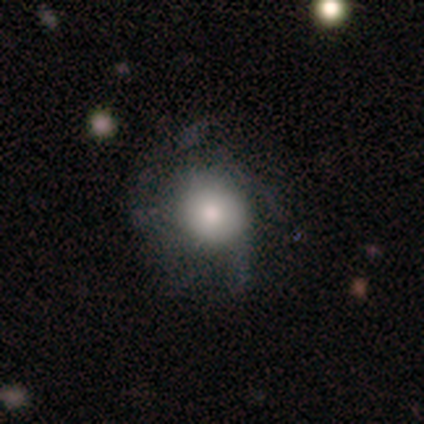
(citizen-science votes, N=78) This is possibly a smooth galaxy (53%). How rounded: clearly round (88%). Merging: marginally none (27%).